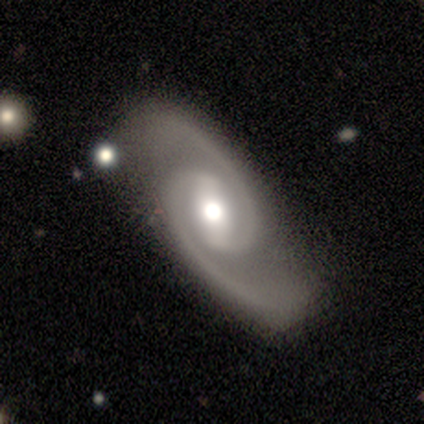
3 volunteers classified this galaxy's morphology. smooth-or-featured: featured or disk: 67% | star or artifact: 33% | smooth: 0%
  disk-edge-on: no: 100% | yes: 0%
    bar: no: 100% | strong: 0% | weak: 0%
    has-spiral-arms: yes: 100% | no: 0%
      spiral-winding: medium: 100% | tight: 0% | loose: 0%
      spiral-arm-count: 2: 100% | 1: 0% | 3: 0% | 4: 0% | more than 4: 0% | can't tell: 0%
    bulge-size: moderate: 100% | dominant: 0% | large: 0% | small: 0% | none: 0%
  merging: none: 100% | minor disturbance: 0% | major disturbance: 0% | merger: 0%